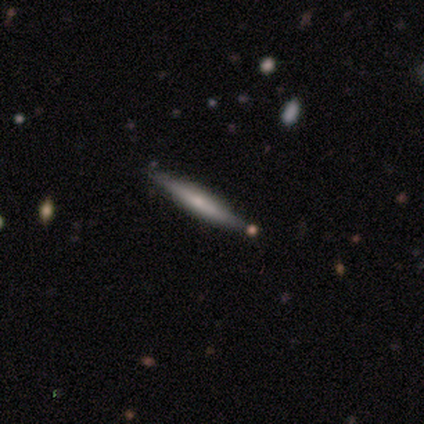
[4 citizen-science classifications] Smooth or featured? 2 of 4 (50%, tied with featured or disk) said smooth. How rounded? 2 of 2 (100%) said cigar-shaped. Merging? 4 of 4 (100%) said none.